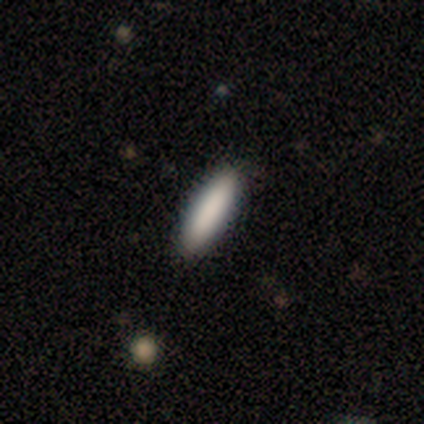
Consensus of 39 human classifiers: Smooth or featured? 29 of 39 (74%) said smooth. How rounded? 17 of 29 (59%) said cigar-shaped. Merging? 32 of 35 (91%) said none.